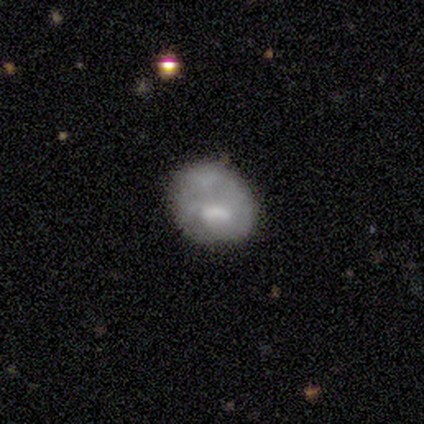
smooth_or_featured: smooth (p=0.80) [alt: featured or disk p=0.20]
how_rounded: round (p=0.75) [alt: in between p=0.25]
merging: minor disturbance (p=0.60) [alt: none p=0.20]